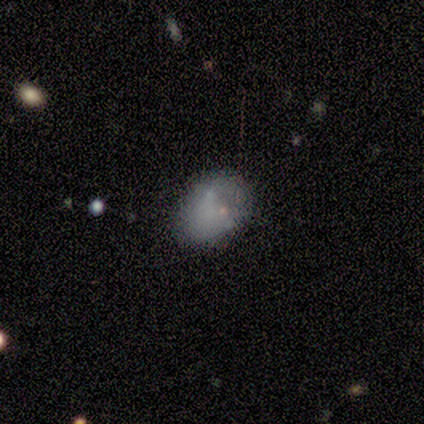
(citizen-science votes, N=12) Smooth or featured? smooth (75%)
How rounded? in between (89%)
Merging? none (50%)